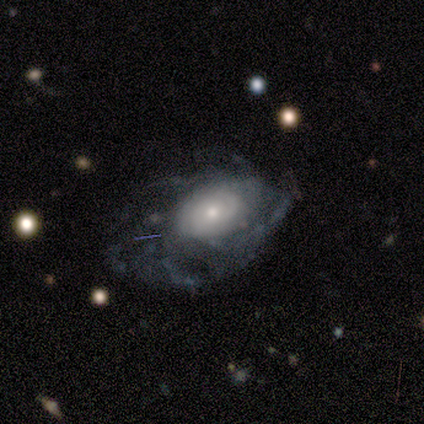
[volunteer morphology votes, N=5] type=smooth (60%); roundness=in between (100%); merging=major disturbance (60%).